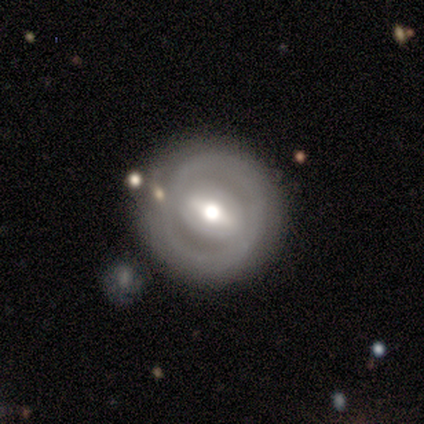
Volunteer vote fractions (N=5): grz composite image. It shows a smooth galaxy with no disk features (40%, tied with featured or disk) that is round (100%). Merging: none (50%).